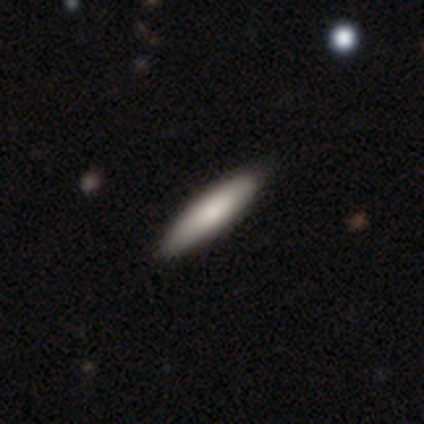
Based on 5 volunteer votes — Q: Smooth or featured?
A: smooth (80%); runner-up: featured or disk (20%)
Q: How rounded?
A: cigar-shaped (75%); runner-up: in between (25%)
Q: Merging?
A: none (80%); runner-up: minor disturbance (20%)